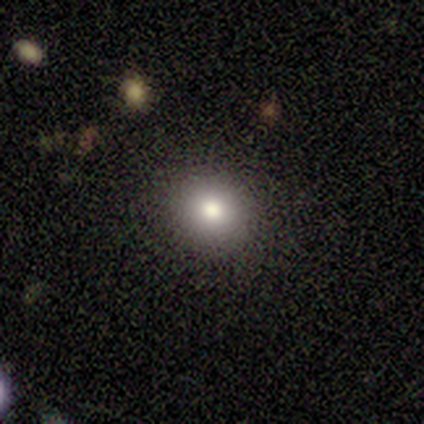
Smooth or featured? smooth (80%)
How rounded? round (72%)
Merging? none (83%)